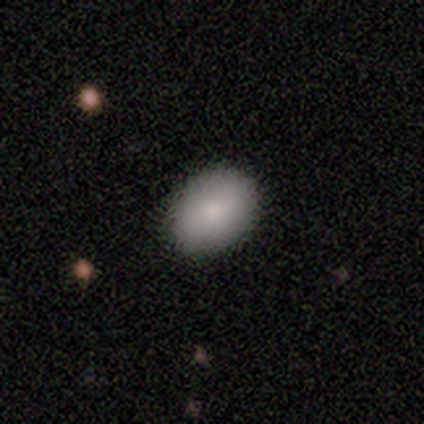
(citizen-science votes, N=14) Smooth or featured? smooth (93%)
How rounded? in between (85%)
Merging? none (100%)